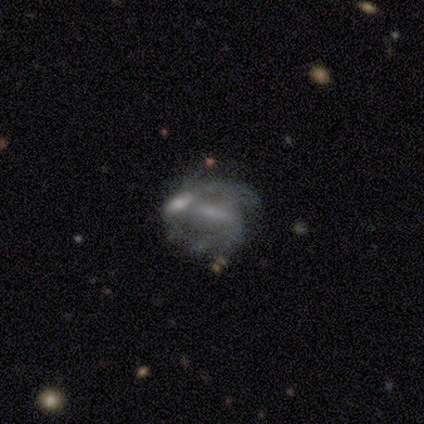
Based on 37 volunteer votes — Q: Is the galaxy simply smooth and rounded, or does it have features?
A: featured or disk — 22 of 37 (59%).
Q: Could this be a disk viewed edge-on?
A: no — 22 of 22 (100%).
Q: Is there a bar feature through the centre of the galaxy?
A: no — 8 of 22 (36%).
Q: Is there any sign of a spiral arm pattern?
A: yes — 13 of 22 (59%).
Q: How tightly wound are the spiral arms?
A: tight — 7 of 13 (54%).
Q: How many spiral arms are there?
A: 2 — 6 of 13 (46%).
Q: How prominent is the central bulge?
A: small — 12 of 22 (55%).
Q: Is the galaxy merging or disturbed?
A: merger — 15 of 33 (45%).